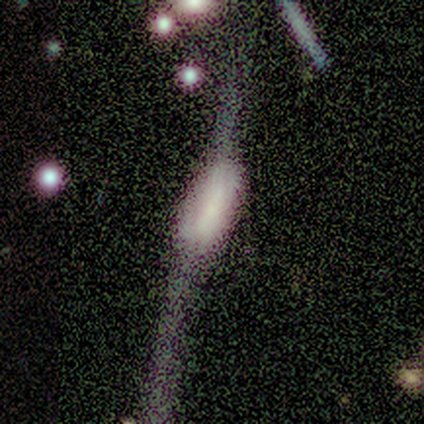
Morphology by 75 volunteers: Volunteers were most divided on "smooth or featured": featured or disk: 47%, smooth: 33%, star or artifact: 20%. Remaining: edge-on bulge — boxy (73%); edge-on disk — yes (63%); merging — major disturbance (47%).